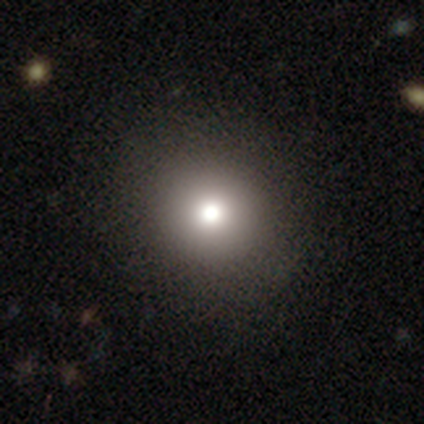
Overall: smooth (68%). How rounded: round (93%). Merging: none (52%).